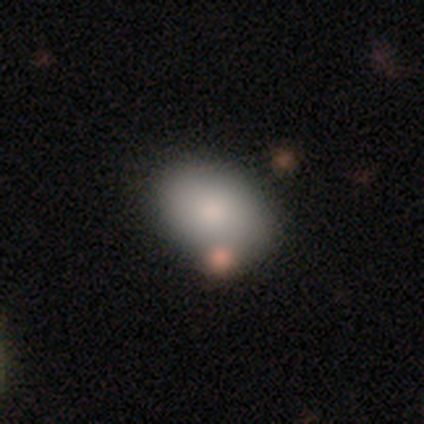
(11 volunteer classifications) smooth-or-featured: smooth: 91% | featured or disk: 9% | star or artifact: 0%
  how-rounded: in between: 100% | round: 0% | cigar-shaped: 0%
  merging: none: 55% | major disturbance: 27% | merger: 18% | minor disturbance: 0%